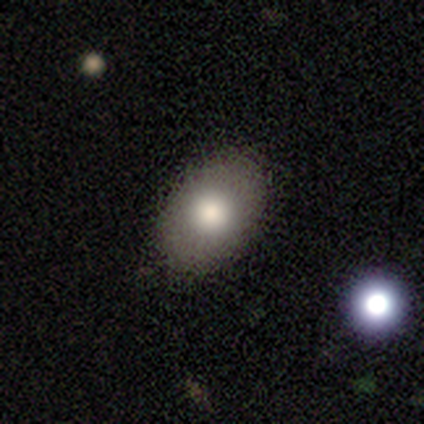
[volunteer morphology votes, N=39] A smooth galaxy with no disk features (72%) that is in between round and cigar-shaped (82%). Merging: none (94%).